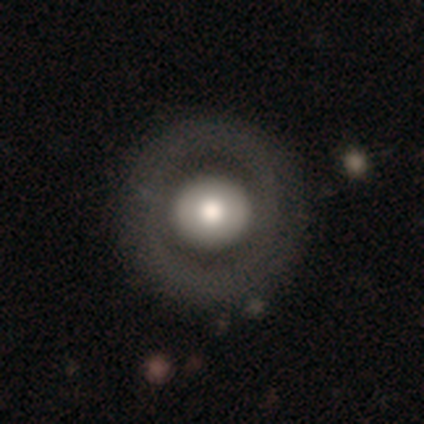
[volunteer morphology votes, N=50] Smooth or featured? 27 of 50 (54%) said featured or disk. Edge-on disk? 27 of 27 (100%) said no. Bar? 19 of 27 (70%) said no. Spiral arms? 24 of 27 (89%) said no. Bulge size? 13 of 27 (48%, tied with moderate) said large. Merging? 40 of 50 (80%) said none.